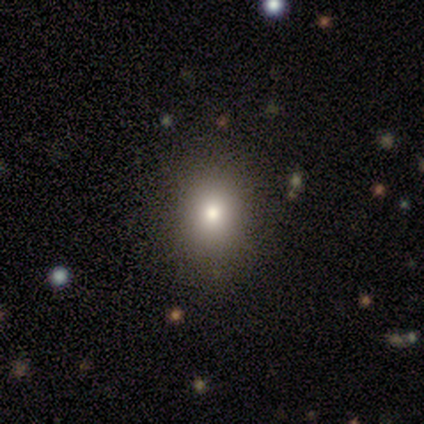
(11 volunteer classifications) Smooth or featured? 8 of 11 (73%) said smooth. How rounded? 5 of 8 (62%) said round. Merging? 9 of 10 (90%) said none.